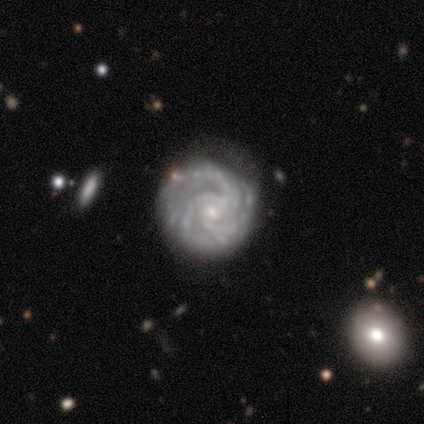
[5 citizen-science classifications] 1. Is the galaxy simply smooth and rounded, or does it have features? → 100% featured or disk, 0% smooth, 0% star or artifact.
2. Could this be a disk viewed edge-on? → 100% no, 0% yes.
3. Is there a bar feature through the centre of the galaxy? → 80% weak, 20% no, 0% strong.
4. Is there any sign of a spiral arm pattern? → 100% yes, 0% no.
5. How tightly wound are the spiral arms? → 80% medium, 20% tight, 0% loose.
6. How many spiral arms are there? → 60% 3, 20% 4, 20% more than 4, 0% 1, 0% 2, 0% can't tell.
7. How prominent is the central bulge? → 60% small, 20% moderate, 20% none, 0% dominant, 0% large.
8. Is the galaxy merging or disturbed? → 80% none, 20% merger, 0% minor disturbance, 0% major disturbance.